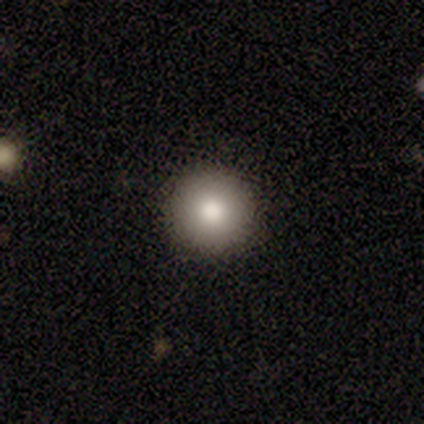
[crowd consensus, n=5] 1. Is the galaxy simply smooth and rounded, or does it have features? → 80% smooth, 20% featured or disk, 0% star or artifact.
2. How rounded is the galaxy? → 100% round, 0% in between, 0% cigar-shaped.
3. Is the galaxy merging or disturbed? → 100% none, 0% minor disturbance, 0% major disturbance, 0% merger.